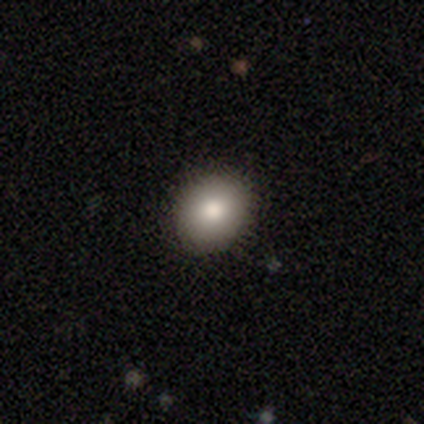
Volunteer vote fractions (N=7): Volunteers were most divided on "how rounded": round: 83%, in between: 17%, cigar-shaped: 0%. More confident: smooth or featured — smooth (86%); merging — none (86%).